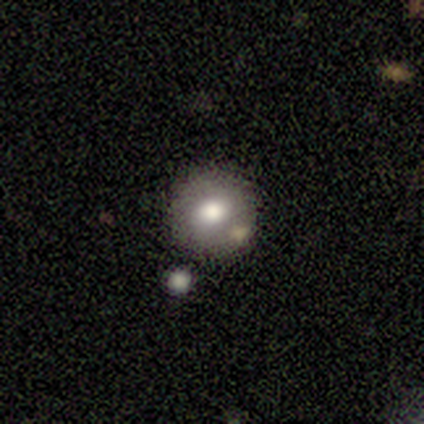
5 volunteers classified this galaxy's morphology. Smooth or featured? smooth (60%)
How rounded? round (100%)
Merging? none (60%)